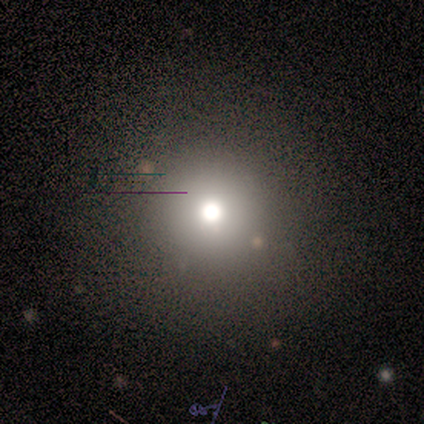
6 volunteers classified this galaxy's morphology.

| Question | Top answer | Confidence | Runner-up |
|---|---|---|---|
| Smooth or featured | smooth | 67% | star or artifact (33%) |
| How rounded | round | 100% | — |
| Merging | none | 100% | — |